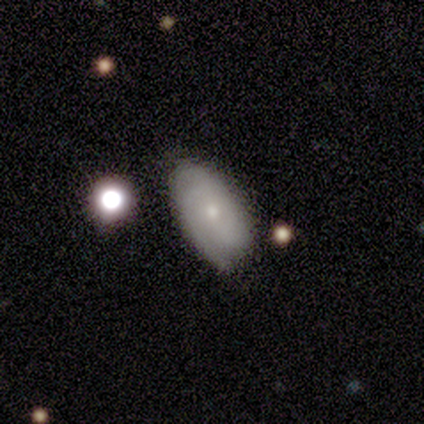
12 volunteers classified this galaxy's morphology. A featured or disk galaxy (50%) with no bar (83%), 2 (50%) tight (75%) spiral arms (67%) and a small central bulge (83%). Merging: none (91%).